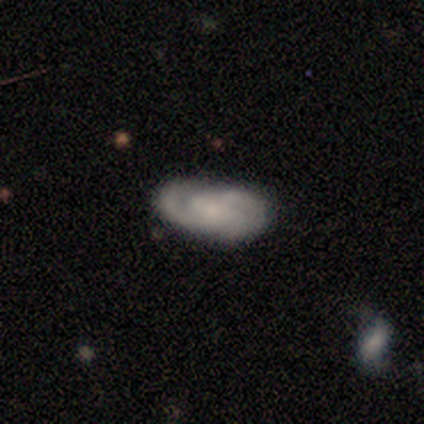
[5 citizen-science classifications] Smooth or featured?
  - featured or disk: 80% *
  - smooth: 20%
  - star or artifact: 0%
Edge-on disk?
  - no: 100% *
  - yes: 0%
Bar?
  - weak: 50% *
  - strong: 25%
  - no: 25%
Spiral arms?
  - yes: 100% *
  - no: 0%
Spiral winding?
  - medium: 75% *
  - loose: 25%
  - tight: 0%
Spiral arm count?
  - 4: 50% *
  - 2: 25%
  - 3: 25%
  - 1: 0%
  - more than 4: 0%
  - can't tell: 0%
Bulge size?
  - small: 100% *
  - dominant: 0%
  - large: 0%
  - moderate: 0%
  - none: 0%
Merging?
  - none: 40% * (tied)
  - minor disturbance: 40% * (tied)
  - major disturbance: 20%
  - merger: 0%